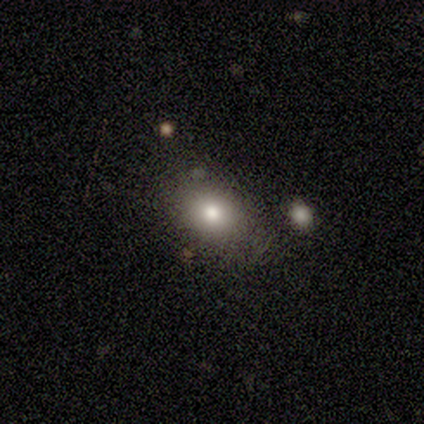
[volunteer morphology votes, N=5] smooth_or_featured: smooth (p=0.60) [alt: featured or disk p=0.40]
how_rounded: in between (p=0.67) [alt: round p=0.33]
merging: none (p=0.80) [alt: merger p=0.20]